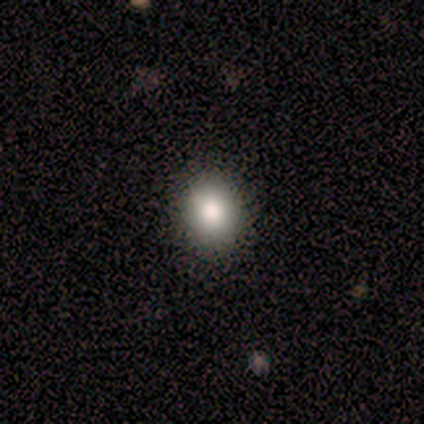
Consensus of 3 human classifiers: smooth 100%, featured or disk 0%, star or artifact 0%. Down the decision tree: how rounded — in between (67%); merging — none (100%).